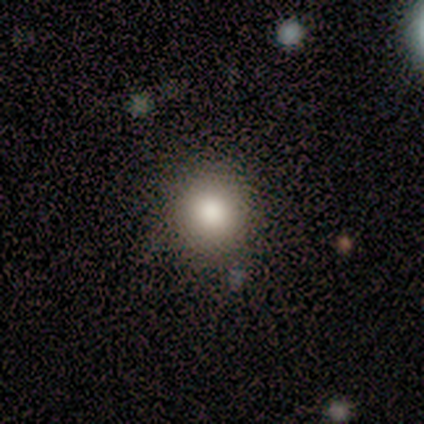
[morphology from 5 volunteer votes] Overall: smooth (100%). How rounded: round (100%). Merging: none (100%).